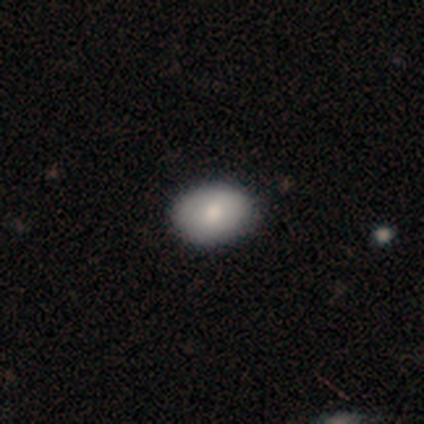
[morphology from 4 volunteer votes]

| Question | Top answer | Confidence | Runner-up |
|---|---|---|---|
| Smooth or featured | smooth | 75% | featured or disk (25%) |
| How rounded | in between | 100% | — |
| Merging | none | 75% | minor disturbance (25%) |